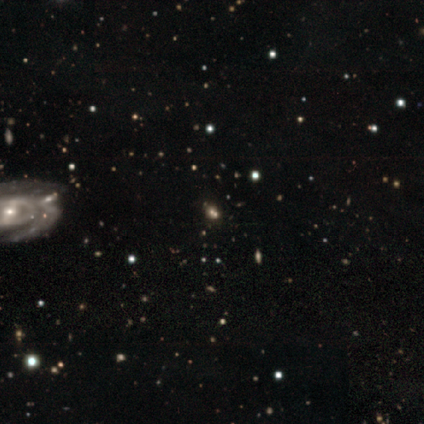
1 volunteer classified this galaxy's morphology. A featured or disk galaxy (100%) with no bar (100%), no spiral arms (100%) and a small central bulge (100%). Merging: merger (100%).